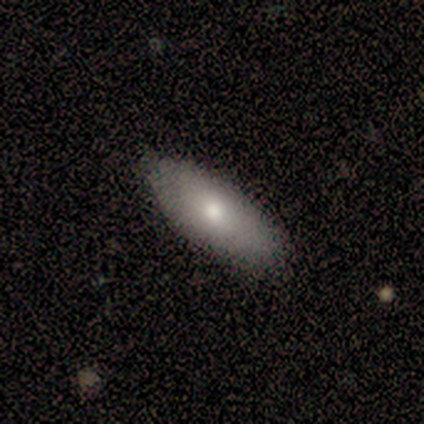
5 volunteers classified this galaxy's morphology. Q: Smooth or featured?
A: featured or disk (60%); runner-up: smooth (40%)
Q: Edge-on disk?
A: no (100%)
Q: Bar?
A: no (100%)
Q: Spiral arms?
A: no (100%)
Q: Bulge size?
A: small (67%); runner-up: moderate (33%)
Q: Merging?
A: none (100%)